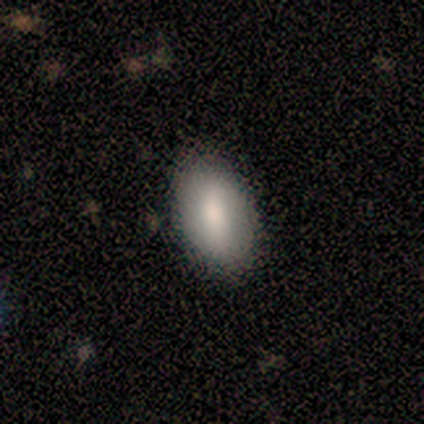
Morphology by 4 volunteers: Smooth or featured? 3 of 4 (75%) said smooth. How rounded? 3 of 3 (100%) said in between. Merging? 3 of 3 (100%) said none.